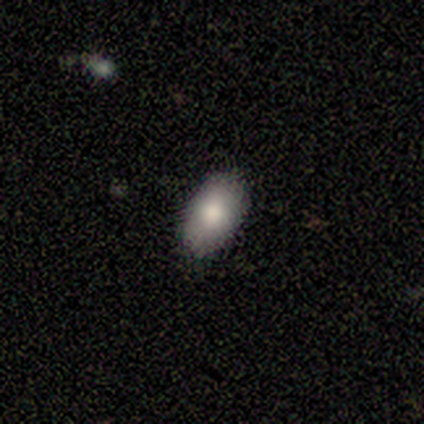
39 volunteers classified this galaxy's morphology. This appears to be a smooth galaxy with no disk features (82%) that is in between round and cigar-shaped (97%). Merging: none (94%).